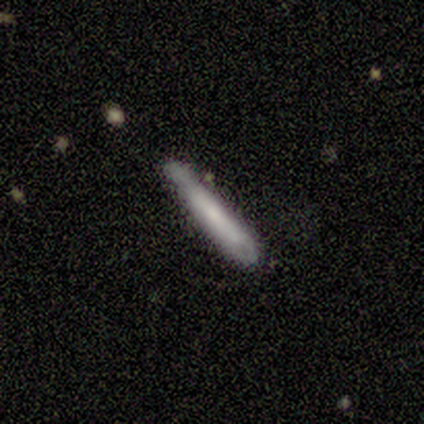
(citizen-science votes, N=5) Volunteers were most divided on "smooth or featured" (2-way tie): featured or disk: 40%, star or artifact: 40%, smooth: 20%; "edge-on disk" (2-way tie): yes: 50%, no: 50%. More confident: edge-on bulge — none (100%); merging — none (67%).